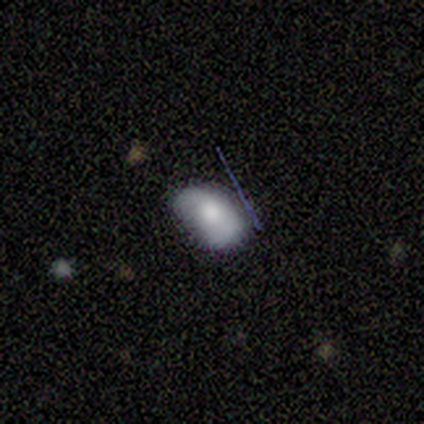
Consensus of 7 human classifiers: Smooth or featured? smooth (100%)
How rounded? in between (86%)
Merging? none (57%)